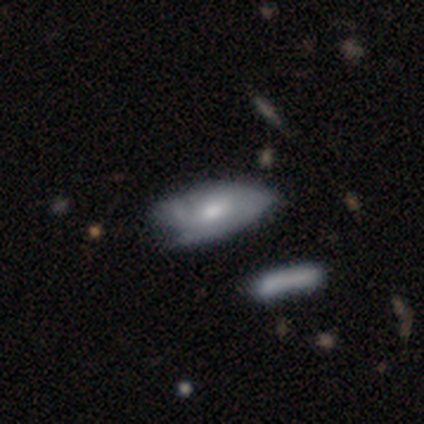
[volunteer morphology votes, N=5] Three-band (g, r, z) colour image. It shows a smooth galaxy with no disk features (80%) that is in between round and cigar-shaped (100%). Merging: minor disturbance (60%).